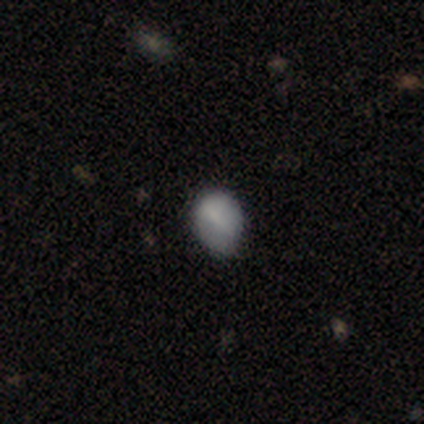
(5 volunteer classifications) Smooth or featured: smooth — 100%
How rounded: round — 60% (in between — 40%)
Merging: minor disturbance — 80% (none — 20%)